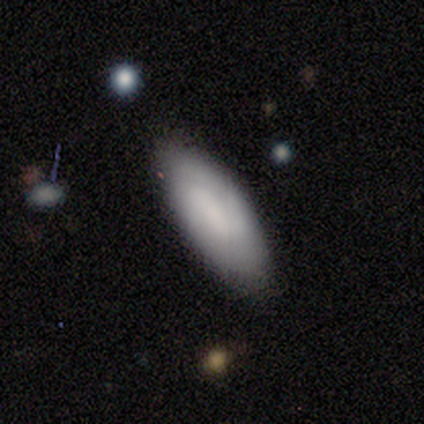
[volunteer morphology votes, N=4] smooth-or-featured: smooth: 50% | featured or disk: 25% | star or artifact: 25%
  how-rounded: in between: 100% | round: 0% | cigar-shaped: 0%
  merging: none: 100% | minor disturbance: 0% | major disturbance: 0% | merger: 0%